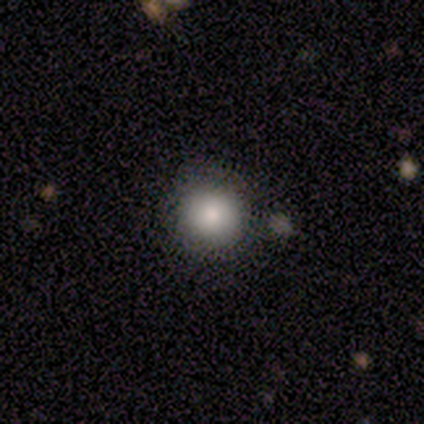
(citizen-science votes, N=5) This is clearly a smooth galaxy (80%). How rounded: clearly round (100%). Merging: likely none (60%).